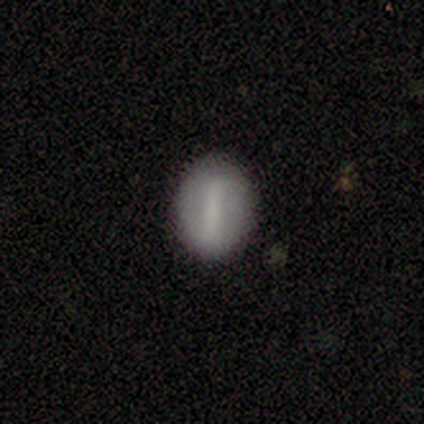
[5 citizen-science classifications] Q: Smooth or featured?
A: featured or disk (60%); runner-up: smooth (20%)
Q: Edge-on disk?
A: no (100%)
Q: Bar?
A: strong (100%)
Q: Spiral arms?
A: no (100%)
Q: Bulge size?
A: large (33%); tied with: moderate (33%); none (33%)
Q: Merging?
A: none (100%)